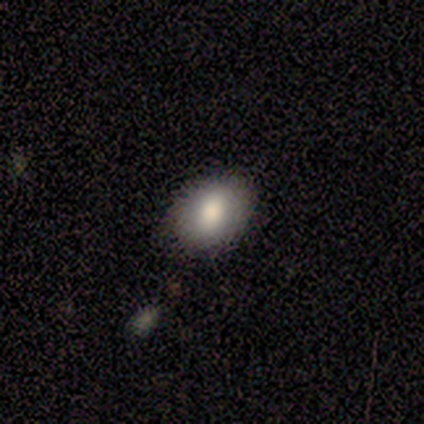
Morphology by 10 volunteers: smooth-or-featured: smooth: 100% | featured or disk: 0% | star or artifact: 0%
  how-rounded: in between: 90% | round: 10% | cigar-shaped: 0%
  merging: none: 80% | minor disturbance: 10% | major disturbance: 10% | merger: 0%